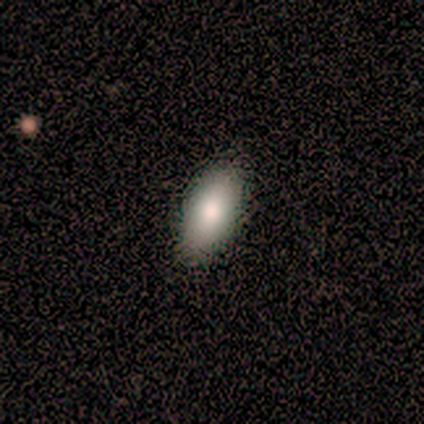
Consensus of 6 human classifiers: This appears to be a smooth galaxy with no disk features (100%) that is in between round and cigar-shaped (100%). Merging: none (100%).